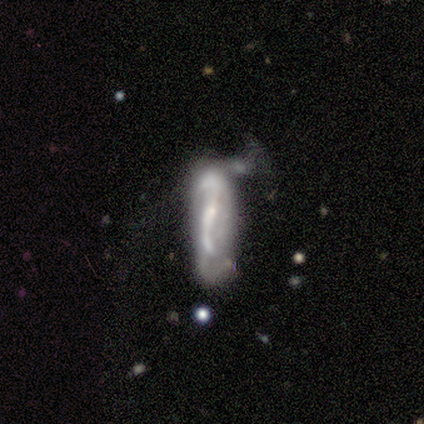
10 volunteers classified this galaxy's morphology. This is marginally a featured or disk galaxy (40%, tied with star or artifact). It is clearly not viewed edge-on (100%). Bar: possibly strong (50%, tied with no). Spiral arm pattern: likely yes (75%). Spiral arm count: likely 2 (67%). Spiral winding: likely medium (67%). Central bulge: possibly small (50%). Merging: possibly major disturbance (50%).